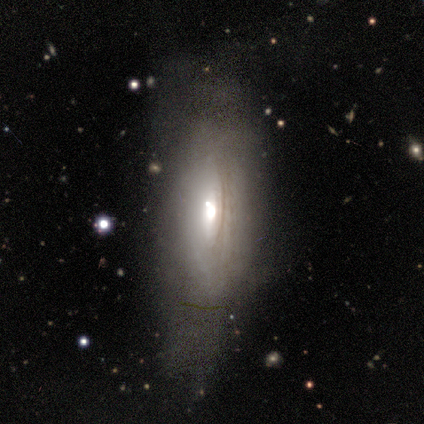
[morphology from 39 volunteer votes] Smooth or featured? smooth (54%)
How rounded? in between (62%)
Merging? none (51%)